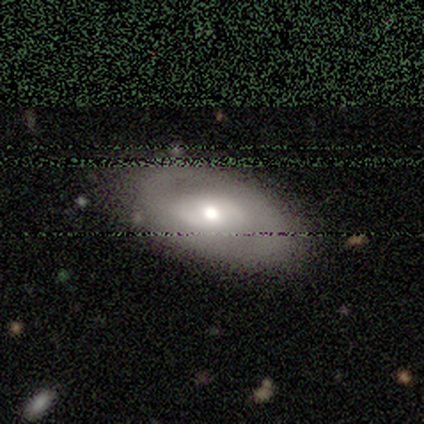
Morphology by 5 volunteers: Smooth or featured? featured or disk (60%)
Edge-on disk? no (67%)
Bar? strong (50%, tied with no)
Spiral arms? no (100%)
Bulge size? moderate (50%, tied with small)
Merging? none (60%)